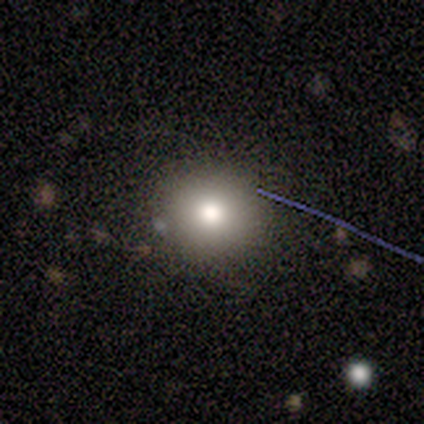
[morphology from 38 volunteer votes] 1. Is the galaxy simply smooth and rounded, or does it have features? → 66% smooth, 26% featured or disk, 8% star or artifact.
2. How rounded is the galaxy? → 88% round, 12% in between, 0% cigar-shaped.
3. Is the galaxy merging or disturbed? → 83% none, 9% major disturbance, 6% minor disturbance, 3% merger.